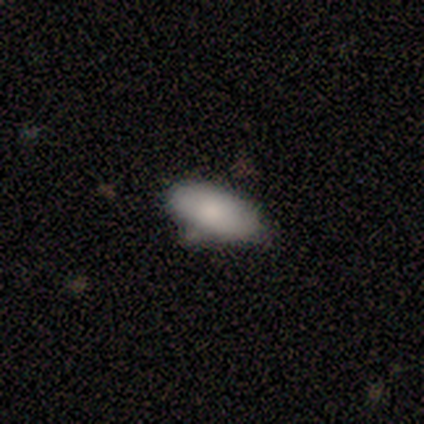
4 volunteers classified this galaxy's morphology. A smooth galaxy with no disk features (75%) that is in between round and cigar-shaped (100%).

Vote fractions:
- Smooth or featured? smooth: 75% / featured or disk: 25% / star or artifact: 0%
- How rounded? in between: 100% / round: 0% / cigar-shaped: 0%
- Merging? none: 50% (tied) / minor disturbance: 50% (tied) / major disturbance: 0% / merger: 0%